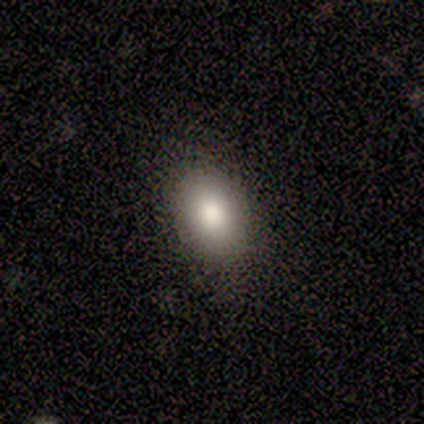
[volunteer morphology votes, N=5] type=smooth (80%); roundness=in between (100%); merging=none (100%).